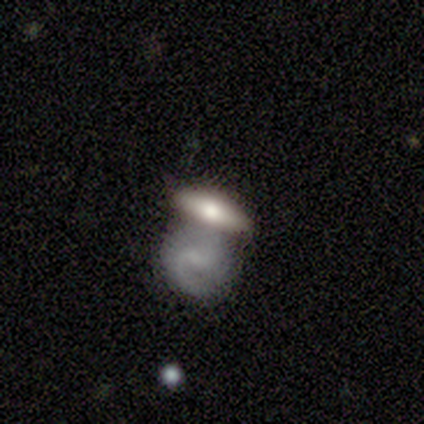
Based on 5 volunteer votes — Morphology: type=featured or disk (60%); edge-on=no (67%); bar=weak (50%, tied with no); spiral arms=yes (50%, tied with no); winding=medium (100%); arm count=2 (100%); bulge=moderate (50%, tied with none); merging=merger (60%).